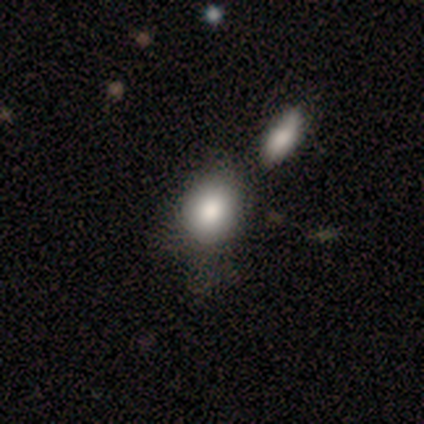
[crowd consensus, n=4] Smooth or featured: smooth — 100%
How rounded: round — 75% (in between — 25%)
Merging: none — 75% (minor disturbance — 25%)